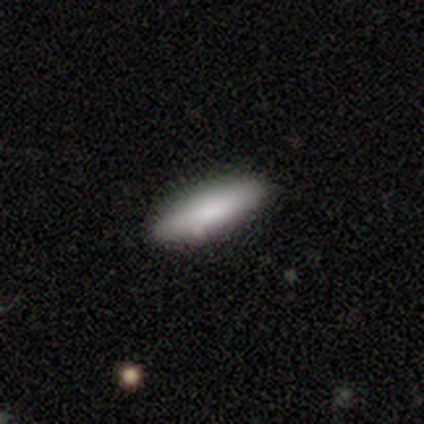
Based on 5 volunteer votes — Overall: smooth (80%). How rounded: cigar-shaped (75%). Merging: none (100%).